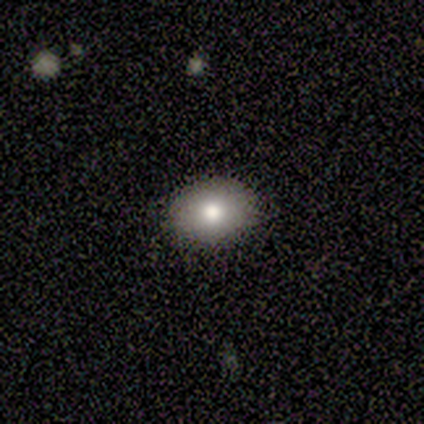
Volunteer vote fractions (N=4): Smooth or featured? 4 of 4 (100%) said smooth. How rounded? 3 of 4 (75%) said in between. Merging? 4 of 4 (100%) said none.